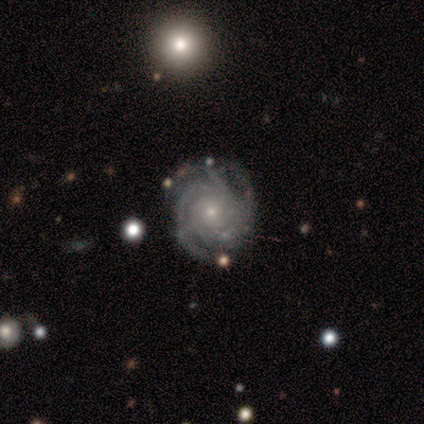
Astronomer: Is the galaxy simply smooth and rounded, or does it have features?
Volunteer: featured or disk — 100%.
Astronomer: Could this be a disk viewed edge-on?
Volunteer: no — 100%.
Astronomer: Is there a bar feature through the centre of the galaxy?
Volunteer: no — 80%.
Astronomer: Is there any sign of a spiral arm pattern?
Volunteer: yes — 100%.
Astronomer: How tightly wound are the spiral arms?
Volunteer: tight — 80%.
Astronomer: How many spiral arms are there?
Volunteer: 3 — 40%, tied with can't tell at 40%.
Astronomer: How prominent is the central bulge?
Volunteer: small — 80%.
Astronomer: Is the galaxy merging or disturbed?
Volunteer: none — 100%.